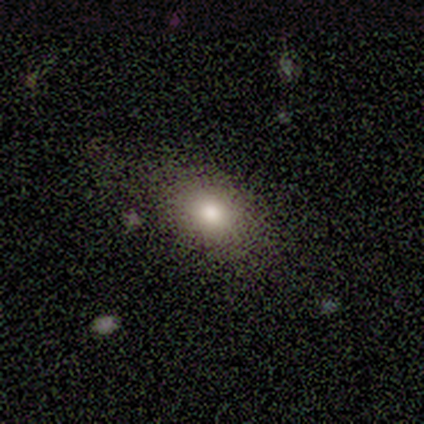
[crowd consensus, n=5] Morphology: type=smooth (80%); roundness=in between (75%); merging=none (100%).